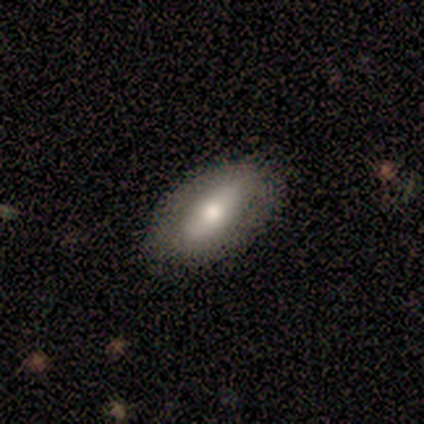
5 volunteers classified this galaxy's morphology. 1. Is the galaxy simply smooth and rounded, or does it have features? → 60% smooth, 40% featured or disk, 0% star or artifact.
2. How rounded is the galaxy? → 100% in between, 0% round, 0% cigar-shaped.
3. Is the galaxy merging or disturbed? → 60% none, 40% minor disturbance, 0% major disturbance, 0% merger.